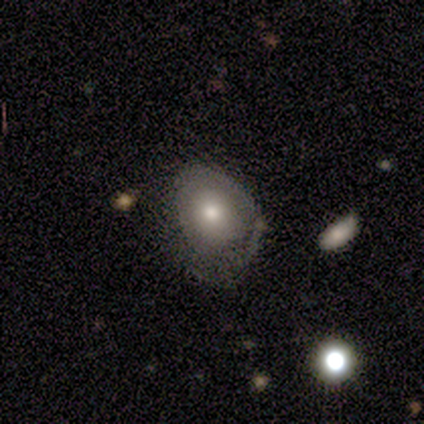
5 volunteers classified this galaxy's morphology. Smooth or featured: smooth — 60% (featured or disk — 40%)
How rounded: in between — 100%
Merging: none — 40% (tied with major disturbance — 40%)